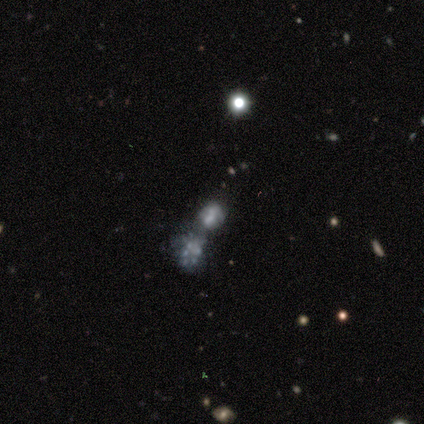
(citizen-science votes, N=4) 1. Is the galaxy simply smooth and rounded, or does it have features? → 50% featured or disk, 25% smooth, 25% star or artifact.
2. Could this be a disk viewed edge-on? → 100% no, 0% yes.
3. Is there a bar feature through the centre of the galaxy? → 50% weak (tied), 50% no (tied), 0% strong.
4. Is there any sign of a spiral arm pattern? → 50% yes (tied), 50% no (tied).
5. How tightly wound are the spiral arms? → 100% medium, 0% tight, 0% loose.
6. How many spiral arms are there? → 100% 2, 0% 1, 0% 3, 0% 4, 0% more than 4, 0% can't tell.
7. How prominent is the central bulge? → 50% large (tied), 50% small (tied), 0% dominant, 0% moderate, 0% none.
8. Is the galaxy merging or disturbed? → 100% merger, 0% none, 0% minor disturbance, 0% major disturbance.